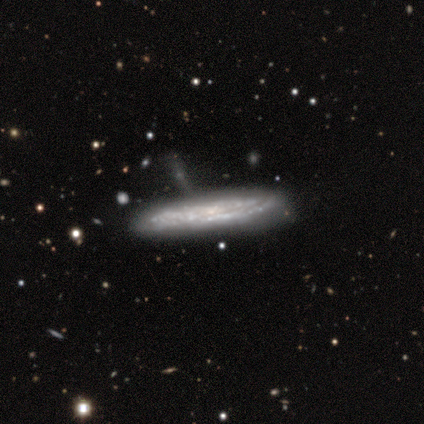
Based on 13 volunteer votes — smooth_or_featured: featured or disk (p=0.69) [alt: smooth p=0.31]
disk_edge_on: yes (p=0.78) [alt: no p=0.22]
edge_on_bulge: none (p=0.86) [alt: rounded p=0.14]
merging: none (p=0.77) [alt: minor disturbance p=0.08]